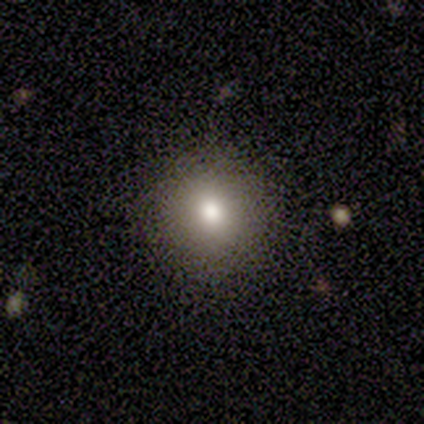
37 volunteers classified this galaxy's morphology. A smooth galaxy with no disk features (81%) that is round (90%).

Vote fractions:
- Smooth or featured? smooth: 81% / star or artifact: 19% / featured or disk: 0%
- How rounded? round: 90% / in between: 10% / cigar-shaped: 0%
- Merging? none: 97% / minor disturbance: 3% / major disturbance: 0% / merger: 0%